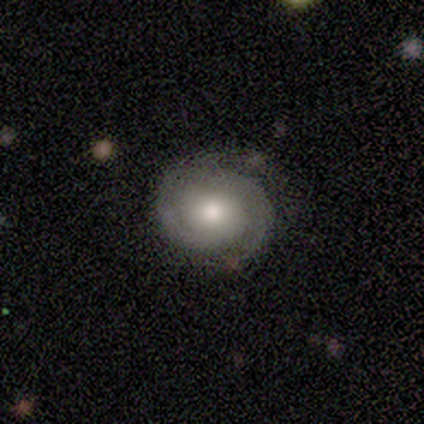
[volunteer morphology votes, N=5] This appears to be a featured or disk galaxy (100%) with no bar (60%), 2 (60%) tight (60%) spiral arms (100%) and a moderate central bulge (80%). Merging: none (100%).